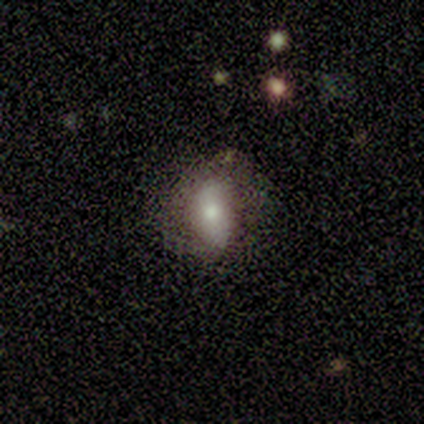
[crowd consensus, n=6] This appears to be a smooth galaxy with no disk features (50%) that is in between round and cigar-shaped (67%). Merging: minor disturbance (60%).